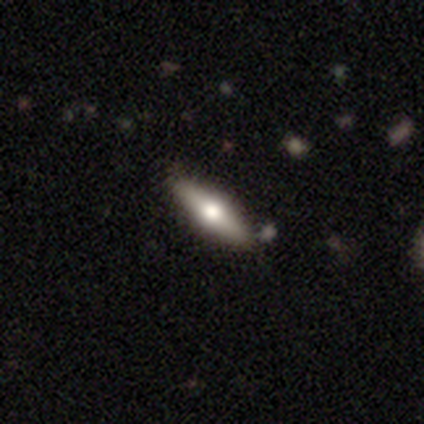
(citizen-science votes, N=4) featured or disk 75%, smooth 25%, star or artifact 0%. Down the decision tree: edge-on disk — yes (100%); edge-on bulge — rounded (100%); merging — minor disturbance (75%).